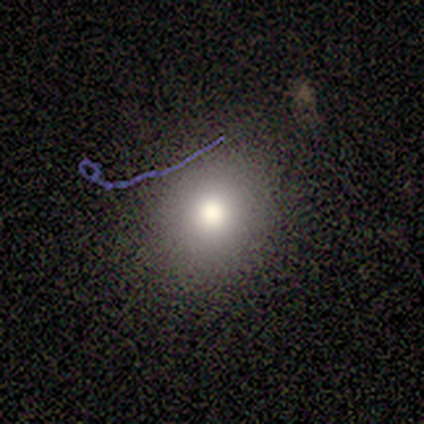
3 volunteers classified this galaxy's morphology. Smooth or featured? smooth (67%)
How rounded? round (50%, tied with in between)
Merging? none (67%)